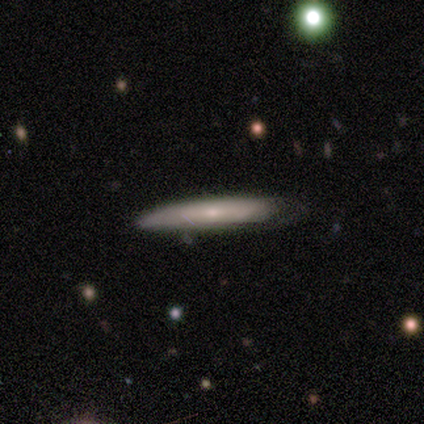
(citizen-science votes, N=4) Overall: smooth (50%, tied with featured or disk). How rounded: cigar-shaped (100%). Merging: none (50%, tied with minor disturbance).